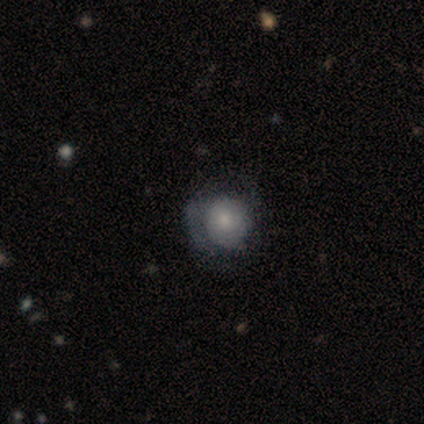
Smooth or featured?
  - smooth: 60% *
  - featured or disk: 40%
  - star or artifact: 0%
How rounded?
  - round: 67% *
  - in between: 33%
  - cigar-shaped: 0%
Merging?
  - none: 100% *
  - minor disturbance: 0%
  - major disturbance: 0%
  - merger: 0%